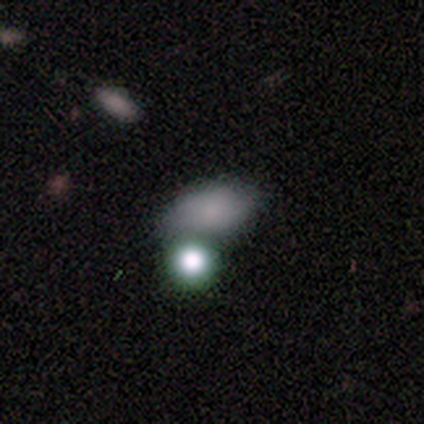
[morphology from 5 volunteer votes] Smooth or featured?
  - smooth: 80% *
  - star or artifact: 20%
  - featured or disk: 0%
How rounded?
  - in between: 75% *
  - round: 25%
  - cigar-shaped: 0%
Merging?
  - none: 75% *
  - merger: 25%
  - minor disturbance: 0%
  - major disturbance: 0%